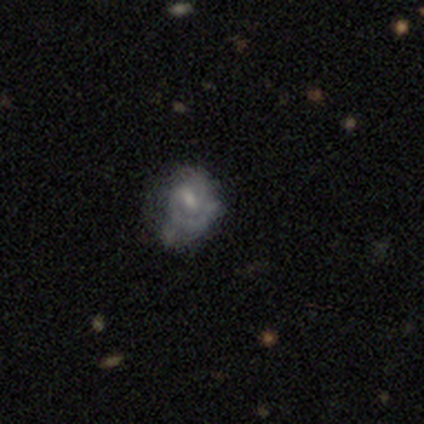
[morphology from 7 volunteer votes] type=featured or disk (100%); edge-on=no (100%); bar=weak (71%); spiral arms=yes (71%); winding=tight (40%, tied with medium); arm count=2 (60%); bulge=moderate (43%); merging=minor disturbance (43%).